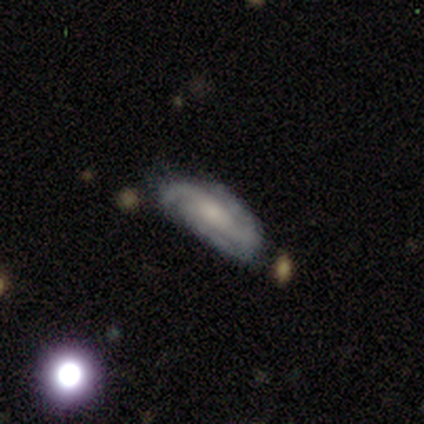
Volunteers were most divided on "bulge size" (2-way tie): moderate: 40%, small: 40%, dominant: 20%, large: 0%, none: 0%. More confident: smooth or featured — featured or disk (100%); edge-on disk — no (100%); spiral arms — yes (100%); bar — no (80%); merging — none (80%); spiral winding — tight (60%); spiral arm count — 3 (60%).